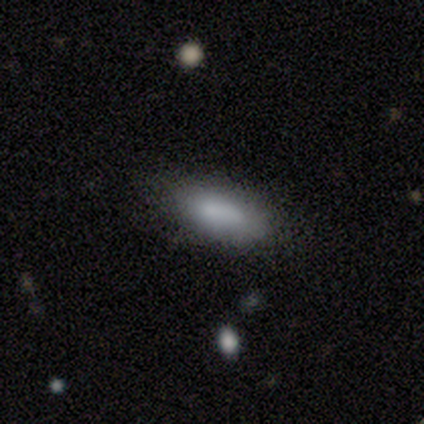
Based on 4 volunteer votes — Smooth or featured?
  - smooth: 75% *
  - star or artifact: 25%
  - featured or disk: 0%
How rounded?
  - in between: 67% *
  - cigar-shaped: 33%
  - round: 0%
Merging?
  - none: 100% *
  - minor disturbance: 0%
  - major disturbance: 0%
  - merger: 0%